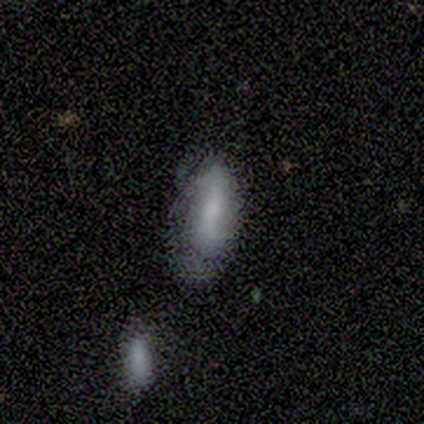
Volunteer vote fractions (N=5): A smooth galaxy with no disk features (80%) that is in between round and cigar-shaped (75%).

Vote fractions:
- Smooth or featured? smooth: 80% / featured or disk: 20% / star or artifact: 0%
- How rounded? in between: 75% / cigar-shaped: 25% / round: 0%
- Merging? minor disturbance: 60% / none: 20% / major disturbance: 20% / merger: 0%